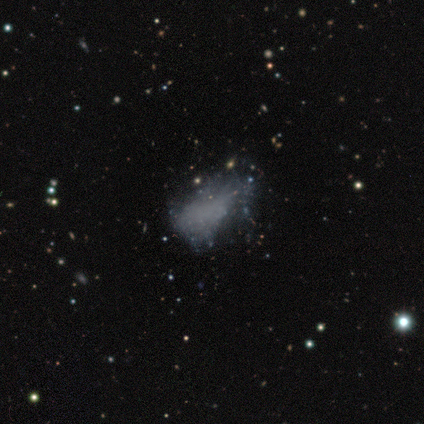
Morphology: type=smooth (40%, tied with star or artifact); roundness=in between (100%); merging=none (33%, tied with minor disturbance and major disturbance).